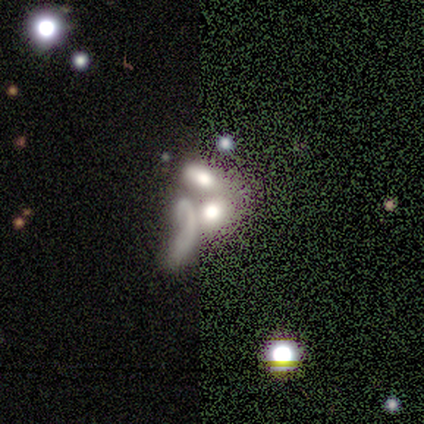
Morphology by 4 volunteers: smooth-or-featured: smooth: 50% (tied) | featured or disk: 50% (tied) | star or artifact: 0%
  how-rounded: in between: 100% | round: 0% | cigar-shaped: 0%
  merging: merger: 50% | none: 25% | major disturbance: 25% | minor disturbance: 0%